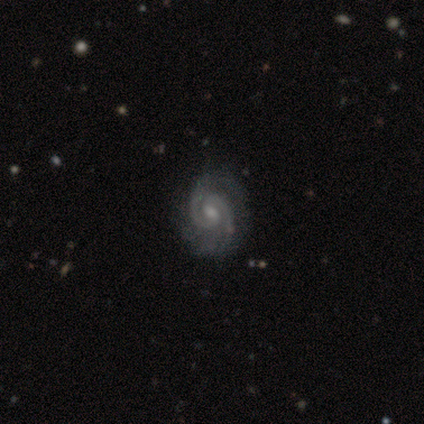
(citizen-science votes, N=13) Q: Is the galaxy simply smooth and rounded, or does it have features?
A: featured or disk — 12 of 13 (92%).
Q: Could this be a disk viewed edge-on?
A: no — 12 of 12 (100%).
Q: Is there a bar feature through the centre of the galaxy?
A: weak — 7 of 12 (58%).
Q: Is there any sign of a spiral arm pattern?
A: yes — 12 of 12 (100%).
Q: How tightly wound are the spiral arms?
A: tight — 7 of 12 (58%).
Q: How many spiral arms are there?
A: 2 — 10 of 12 (83%).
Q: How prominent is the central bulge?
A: moderate — 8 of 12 (67%).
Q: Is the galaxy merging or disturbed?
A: none — 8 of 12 (67%).